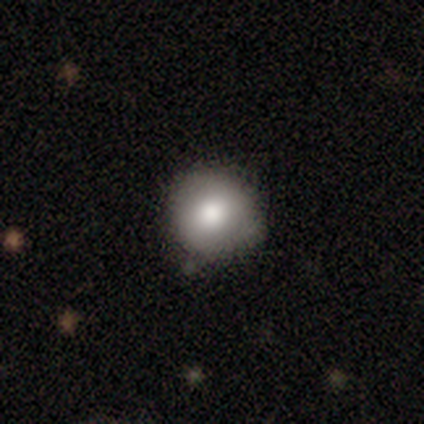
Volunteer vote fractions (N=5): This appears to be a smooth galaxy with no disk features (80%) that is round (100%). Merging: none (60%).